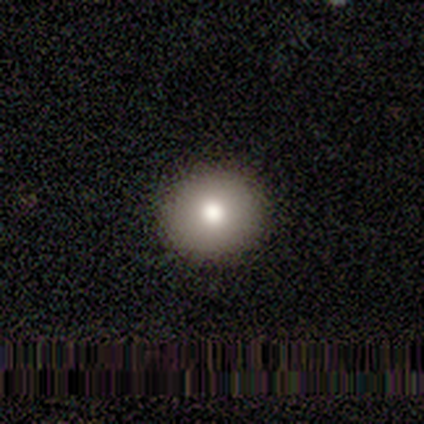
Volunteers were most divided on "smooth or featured": smooth: 80%, featured or disk: 20%, star or artifact: 0%. More confident: how rounded — round (100%); merging — none (100%).